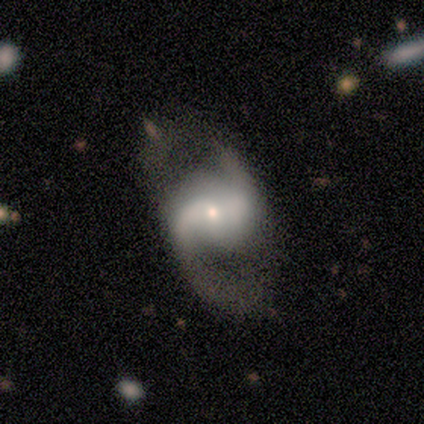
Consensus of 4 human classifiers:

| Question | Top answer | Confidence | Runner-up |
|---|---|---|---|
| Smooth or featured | featured or disk | 75% | star or artifact (25%) |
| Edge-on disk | no | 100% | — |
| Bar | strong | 33% | tied: weak (33%), no (33%) |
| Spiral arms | yes | 100% | — |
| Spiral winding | tight | 33% | tied: medium (33%), loose (33%) |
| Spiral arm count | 2 | 100% | — |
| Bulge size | large | 33% | tied: moderate (33%), small (33%) |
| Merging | minor disturbance | 67% | none (33%) |